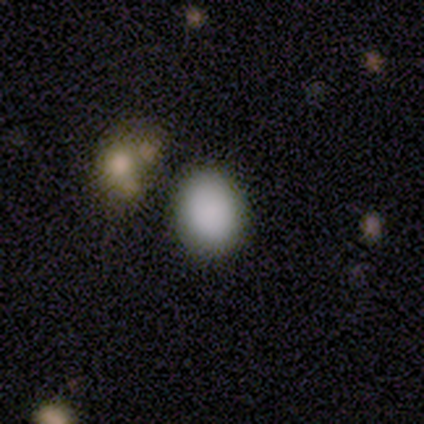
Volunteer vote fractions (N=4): This appears to be a smooth galaxy with no disk features (75%) that is round (67%). Merging: none (75%).